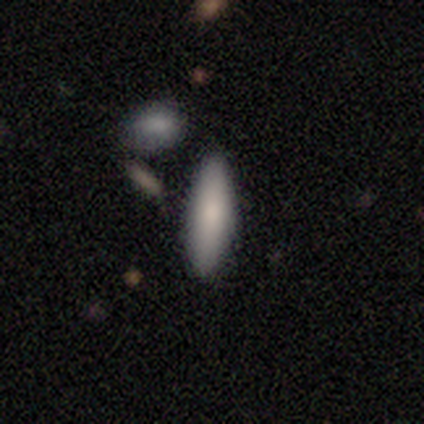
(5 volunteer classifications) Overall: featured or disk (60%; smooth 40%). Edge-on disk: yes (100%). Edge-on bulge: rounded (100%). Merging: none (80%).